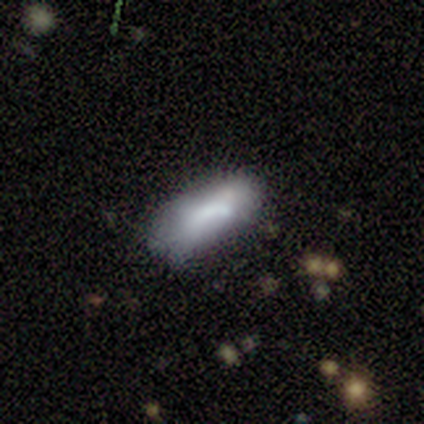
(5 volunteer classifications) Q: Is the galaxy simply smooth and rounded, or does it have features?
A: smooth — 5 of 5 (100%).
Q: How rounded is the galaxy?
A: cigar-shaped — 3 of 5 (60%).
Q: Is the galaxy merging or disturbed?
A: none — 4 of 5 (80%).